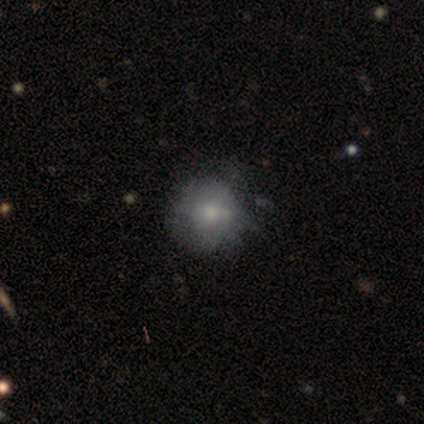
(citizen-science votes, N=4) This is possibly a smooth galaxy (50%, tied with featured or disk). How rounded: clearly round (100%). Merging: likely none (75%).